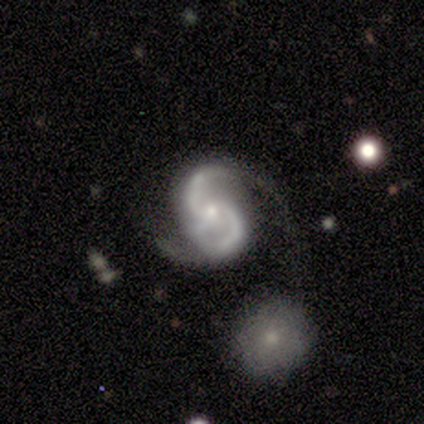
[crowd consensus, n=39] smooth_or_featured: featured or disk (p=0.92) [alt: smooth p=0.05]
disk_edge_on: no (p=1.00)
bar: no (p=0.64) [alt: weak p=0.28]
has_spiral_arms: yes (p=1.00)
spiral_winding: medium (p=0.58) [alt: loose p=0.28]
spiral_arm_count: 2 (p=0.86) [alt: 3 p=0.11]
bulge_size: small (p=0.69) [alt: moderate p=0.25]
merging: none (p=0.42) [alt: minor disturbance p=0.24]